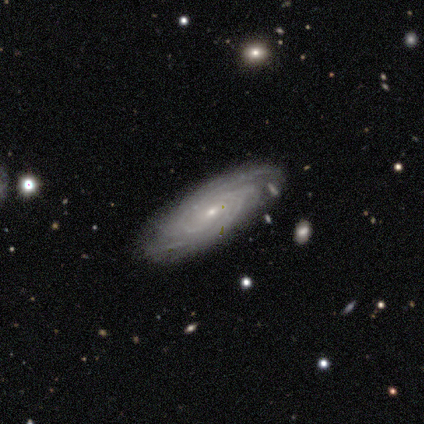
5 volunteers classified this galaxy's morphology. Smooth or featured: featured or disk — 100%
Edge-on disk: no — 100%
Bar: no — 100%
Spiral arms: yes — 100%
Spiral winding: tight — 100%
Spiral arm count: 3 — 40% (4 — 20%)
Bulge size: small — 80% (moderate — 20%)
Merging: none — 60% (minor disturbance — 40%)